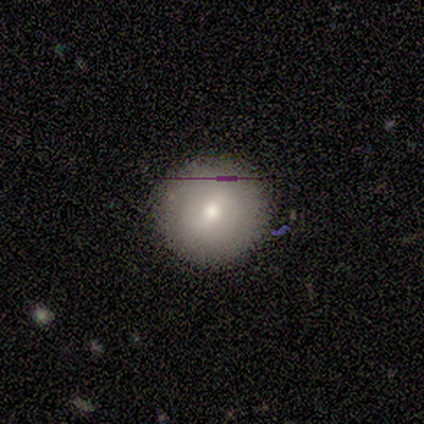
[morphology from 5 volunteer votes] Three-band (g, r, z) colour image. It shows a featured or disk galaxy (60%) with a strong bar (50%, tied with weak), no spiral arms (100%) and a small central bulge (100%). Merging: none (80%).